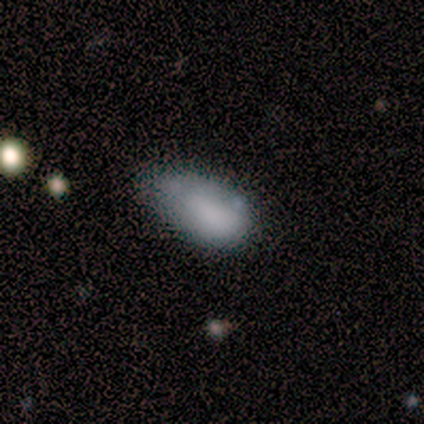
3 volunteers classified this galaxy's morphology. Smooth or featured? smooth (100%)
How rounded? in between (100%)
Merging? minor disturbance (100%)